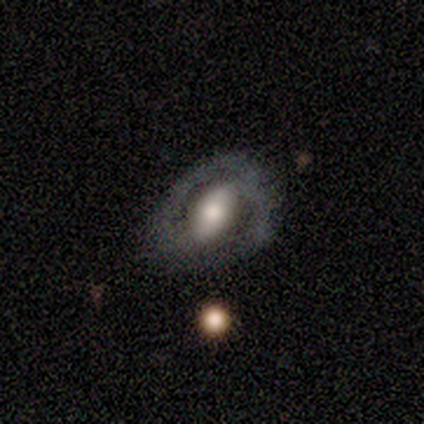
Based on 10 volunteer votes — Overall: featured or disk (80%). Edge-on disk: no (100%). Bar: weak (50%; strong 38%). Spiral arms: yes (88%). Spiral arm count: 2 (86%). Spiral winding: tight (57%; loose 29%). Bulge size: moderate (62%; large 38%). Merging: none (60%; minor disturbance 40%).